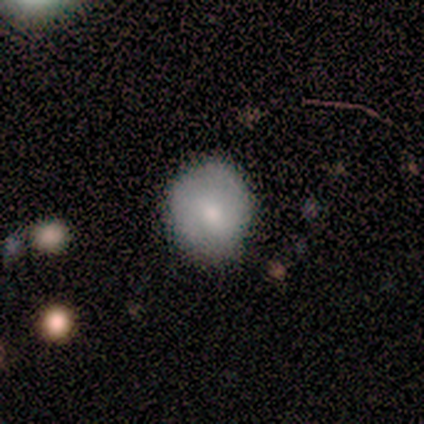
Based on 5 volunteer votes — This is clearly a smooth galaxy (80%). How rounded: likely round (75%). Merging: likely none (60%).